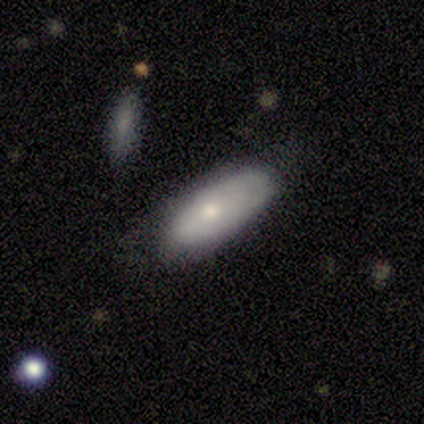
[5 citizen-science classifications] A featured or disk galaxy (60%) with no bar (100%), no spiral arms (100%) and a small central bulge (67%). Merging: none (60%).